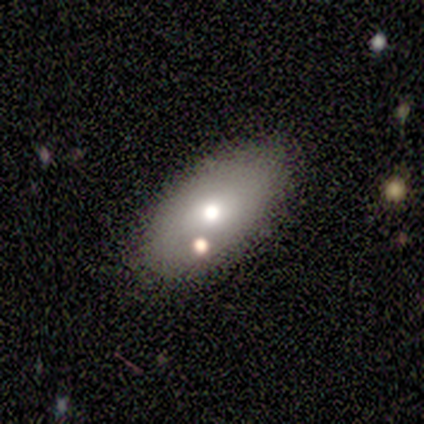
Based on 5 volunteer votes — Overall: smooth (80%). How rounded: in between (100%). Merging: none (100%).